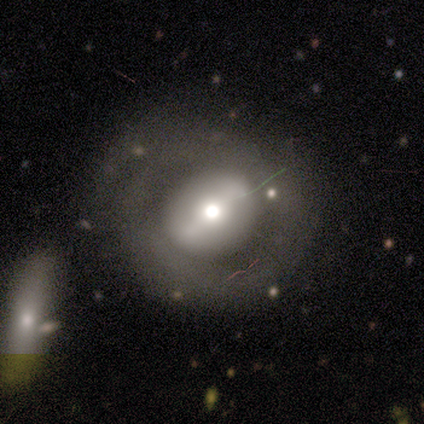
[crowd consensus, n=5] Smooth or featured?
  - featured or disk: 60% *
  - smooth: 40%
  - star or artifact: 0%
Edge-on disk?
  - no: 67% *
  - yes: 33%
Bar?
  - strong: 50% * (tied)
  - no: 50% * (tied)
  - weak: 0%
Spiral arms?
  - no: 100% *
  - yes: 0%
Bulge size?
  - large: 50% * (tied)
  - moderate: 50% * (tied)
  - dominant: 0%
  - small: 0%
  - none: 0%
Merging?
  - major disturbance: 60% *
  - none: 20%
  - minor disturbance: 20%
  - merger: 0%